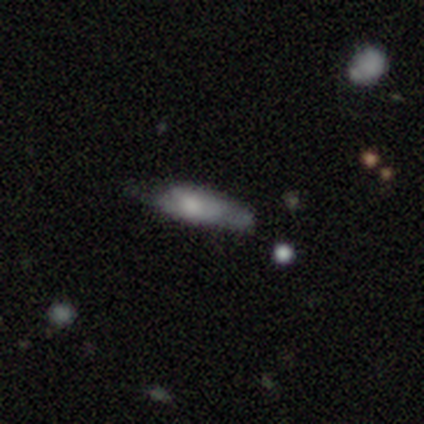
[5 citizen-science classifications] This appears to be a featured or disk galaxy (80%) viewed edge-on (50%, tied with no) with a rounded central bulge (100%). Merging: none (60%).